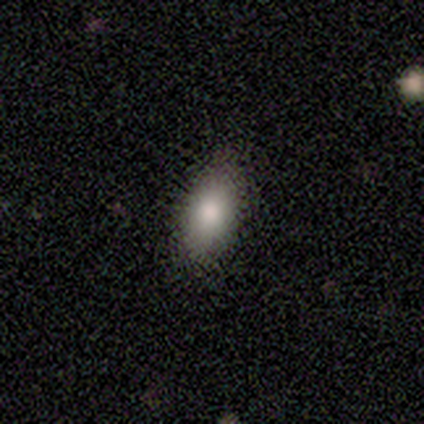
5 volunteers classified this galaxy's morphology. Q: Smooth or featured?
A: smooth (80%); runner-up: star or artifact (20%)
Q: How rounded?
A: in between (100%)
Q: Merging?
A: none (50%); tied with: minor disturbance (50%)